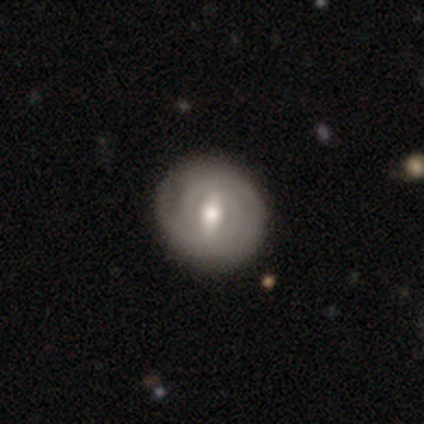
Volunteers were most divided on "spiral arm count" (3-way tie): 1: 33%, 2: 33%, can't tell: 33%, 3: 0%, 4: 0%, more than 4: 0%. More confident: edge-on disk — no (100%); spiral arms — yes (100%); bulge size — moderate (100%); bar — weak (67%); spiral winding — tight (67%); smooth or featured — featured or disk (60%); merging — none (60%).